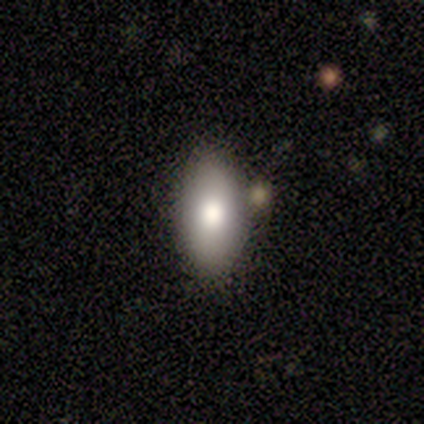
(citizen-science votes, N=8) Volunteers were most divided on "smooth or featured": smooth: 75%, featured or disk: 25%, star or artifact: 0%. More confident: merging — none (88%); how rounded — in between (83%).